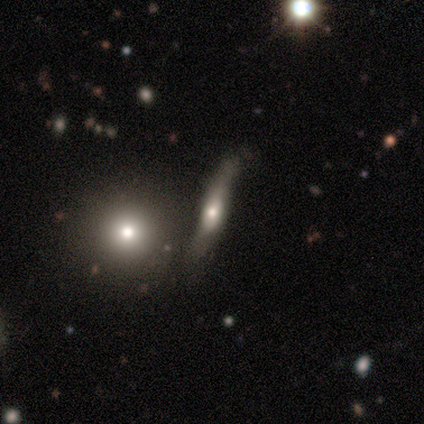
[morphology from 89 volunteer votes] A featured or disk galaxy (48%) viewed edge-on (79%) with a rounded central bulge (88%).

Vote fractions:
- Smooth or featured? featured or disk: 48% / smooth: 45% / star or artifact: 7%
- Edge-on disk? yes: 79% / no: 21%
- Edge-on bulge? rounded: 88% / boxy: 6% / none: 6%
- Merging? none: 54% / minor disturbance: 24% / merger: 18% / major disturbance: 4%